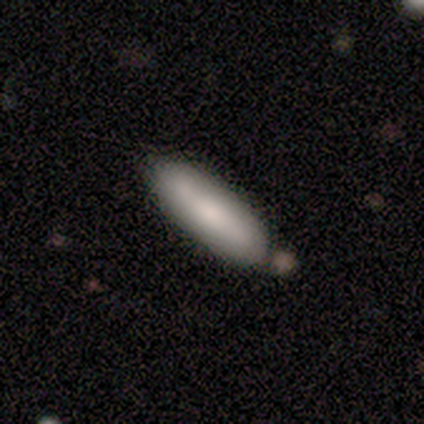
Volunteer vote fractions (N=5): A smooth galaxy with no disk features (80%) that is cigar-shaped (75%). Merging: none (80%).